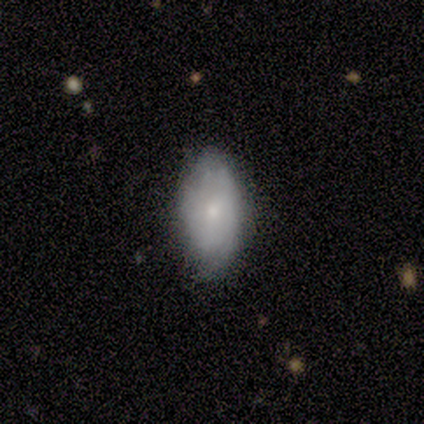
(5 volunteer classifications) A smooth galaxy with no disk features (40%, tied with featured or disk) that is in between round and cigar-shaped (100%). Merging: none (75%).